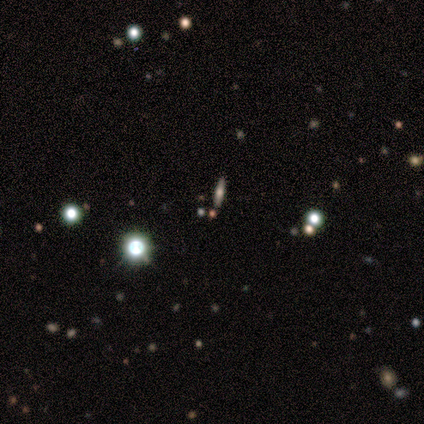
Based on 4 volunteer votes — This is likely a featured or disk galaxy (75%). It is clearly viewed edge-on (100%). Edge-on bulge: clearly rounded (100%). Merging: clearly none (100%).